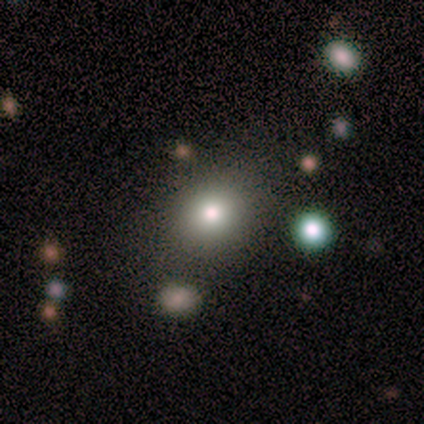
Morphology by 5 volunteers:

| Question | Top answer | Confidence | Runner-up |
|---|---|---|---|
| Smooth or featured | smooth | 100% | — |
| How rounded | round | 80% | in between (20%) |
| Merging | none | 100% | — |